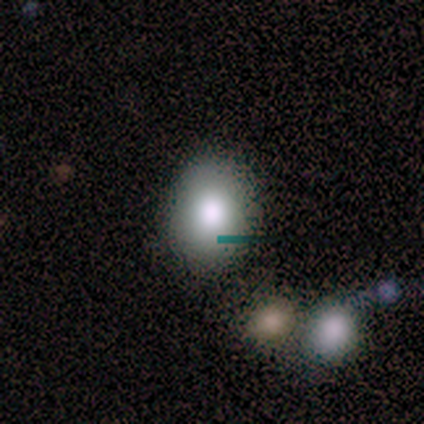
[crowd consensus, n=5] Smooth or featured: smooth — 60% (featured or disk — 40%)
How rounded: round — 67% (in between — 33%)
Merging: none — 40% (minor disturbance — 20%)